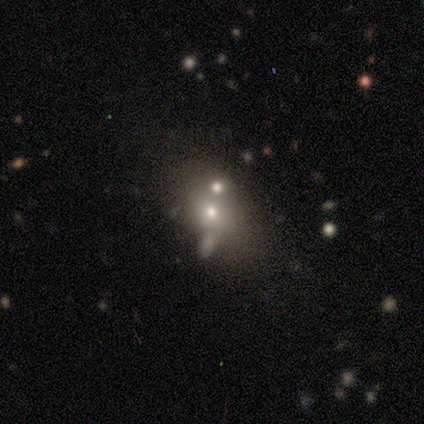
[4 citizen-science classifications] This appears to be a smooth galaxy with no disk features (100%) that is in between round and cigar-shaped (75%). Merging: none (75%).